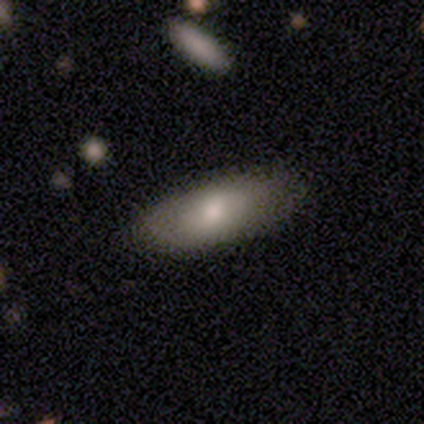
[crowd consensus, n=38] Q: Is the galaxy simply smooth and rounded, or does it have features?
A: smooth — 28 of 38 (74%).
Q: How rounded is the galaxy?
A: in between — 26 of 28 (93%).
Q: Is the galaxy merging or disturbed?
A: none — 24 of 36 (67%).